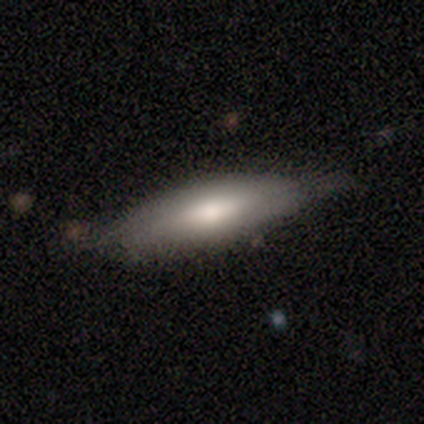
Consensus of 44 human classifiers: Q: Smooth or featured?
A: smooth (68%); runner-up: featured or disk (25%)
Q: How rounded?
A: cigar-shaped (57%); runner-up: in between (40%)
Q: Merging?
A: none (78%); runner-up: minor disturbance (17%)